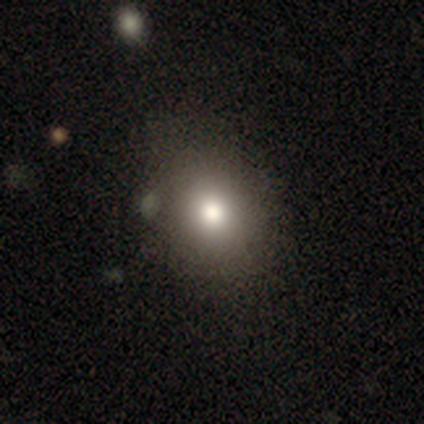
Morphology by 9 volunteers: A smooth galaxy with no disk features (78%) that is in between round and cigar-shaped (57%).

Vote fractions:
- Smooth or featured? smooth: 78% / featured or disk: 11% / star or artifact: 11%
- How rounded? in between: 57% / round: 43% / cigar-shaped: 0%
- Merging? none: 88% / major disturbance: 12% / minor disturbance: 0% / merger: 0%